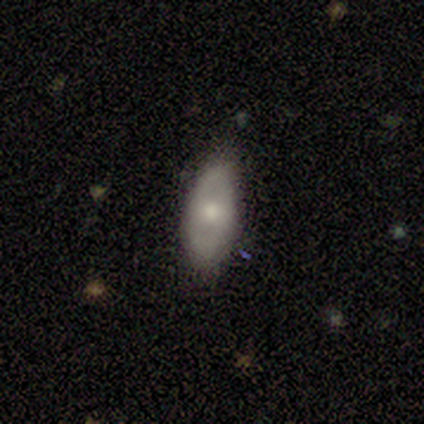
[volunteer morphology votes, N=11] type=featured or disk (64%); edge-on=no (100%); bar=no (86%); spiral arms=no (71%); bulge=small (71%); merging=none (60%).